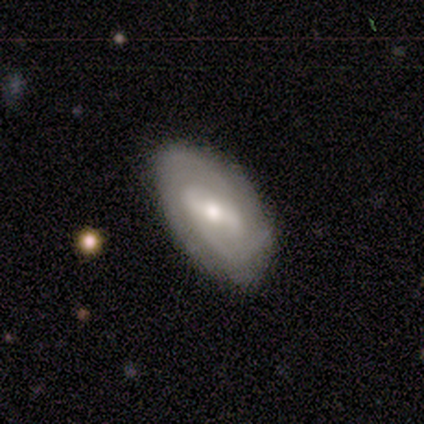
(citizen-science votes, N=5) Volunteers were most divided on "bar" (2-way tie): strong: 50%, weak: 50%, no: 0%. More confident: edge-on disk — no (100%); spiral arms — yes (100%); spiral arm count — 2 (100%); smooth or featured — featured or disk (80%); merging — none (80%); bulge size — moderate (75%); spiral winding — tight (50%).